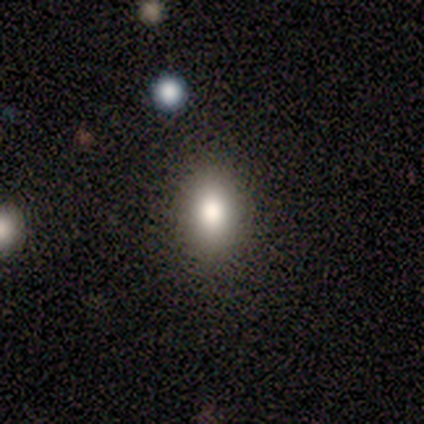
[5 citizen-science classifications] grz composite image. It shows a smooth galaxy with no disk features (80%) that is round (75%). Merging: none (100%).